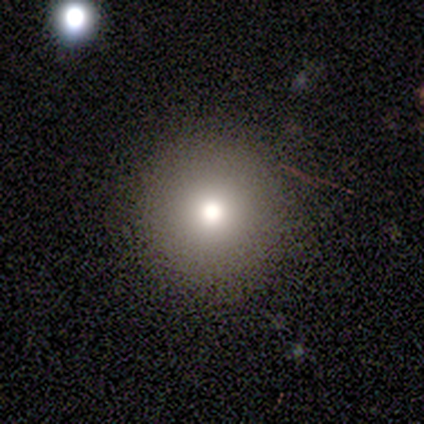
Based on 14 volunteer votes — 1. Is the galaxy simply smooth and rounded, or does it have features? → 79% smooth, 14% featured or disk, 7% star or artifact.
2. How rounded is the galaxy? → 100% round, 0% in between, 0% cigar-shaped.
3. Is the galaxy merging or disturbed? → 85% none, 15% minor disturbance, 0% major disturbance, 0% merger.